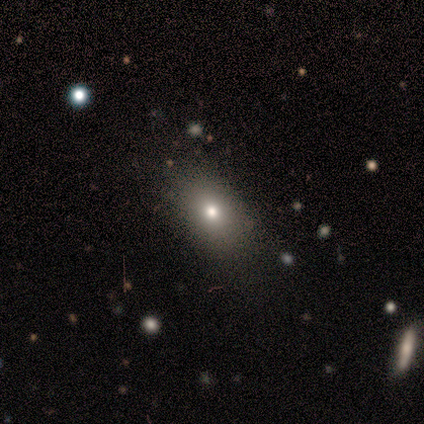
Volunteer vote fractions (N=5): Q: Smooth or featured?
A: smooth (40%); tied with: star or artifact (40%)
Q: How rounded?
A: in between (100%)
Q: Merging?
A: none (100%)